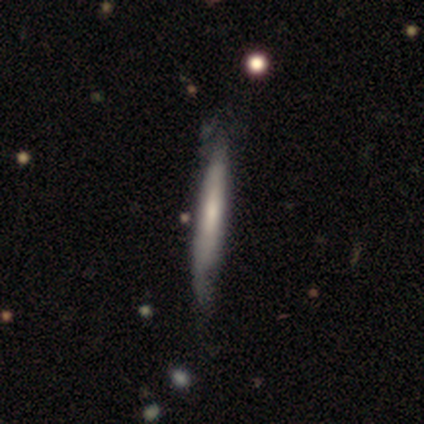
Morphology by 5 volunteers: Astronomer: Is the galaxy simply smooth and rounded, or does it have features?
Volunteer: smooth — 60% (runner-up: featured or disk, 40%).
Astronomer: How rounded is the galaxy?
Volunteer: cigar-shaped — 100%.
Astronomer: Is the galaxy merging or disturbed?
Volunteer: none — 100%.